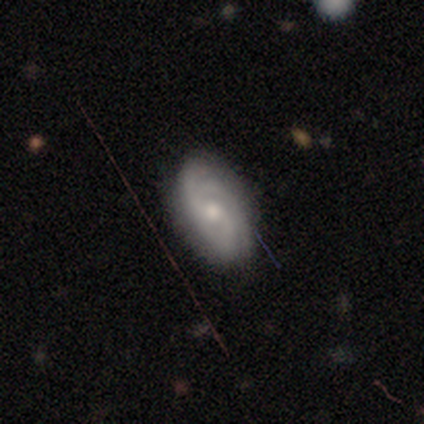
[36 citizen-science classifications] This is likely a featured or disk galaxy (72%). It is clearly not viewed edge-on (100%). Bar: likely no (73%). Spiral arm pattern: clearly yes (96%). Spiral arm count: marginally 3 (36%). Spiral winding: possibly tight (56%). Central bulge: likely moderate (62%). Merging: clearly none (83%).